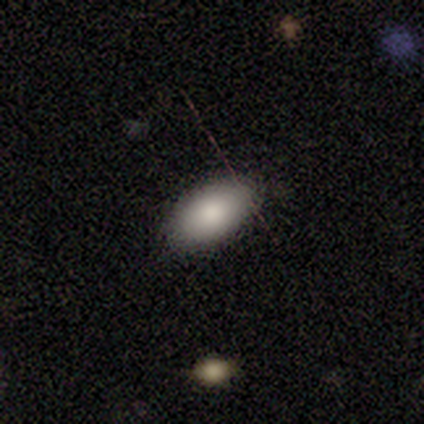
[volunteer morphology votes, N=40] type=smooth (92%); roundness=in between (95%); merging=none (89%).